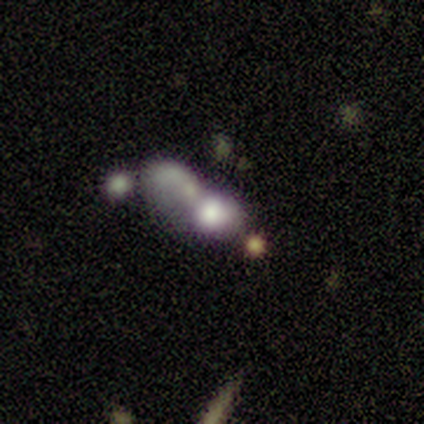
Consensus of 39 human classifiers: This appears to be a smooth galaxy with no disk features (46%) that is in between round and cigar-shaped (56%). Merging: merger (68%).